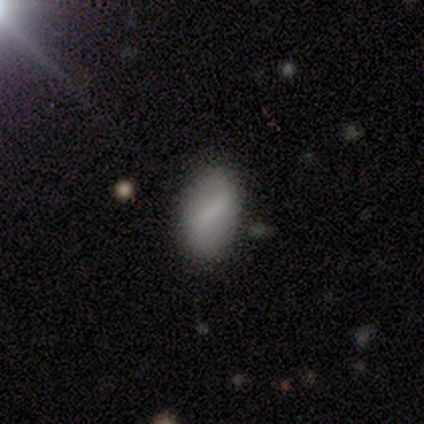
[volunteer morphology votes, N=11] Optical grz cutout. It shows a smooth galaxy with no disk features (82%) that is in between round and cigar-shaped (78%). Merging: none (91%).